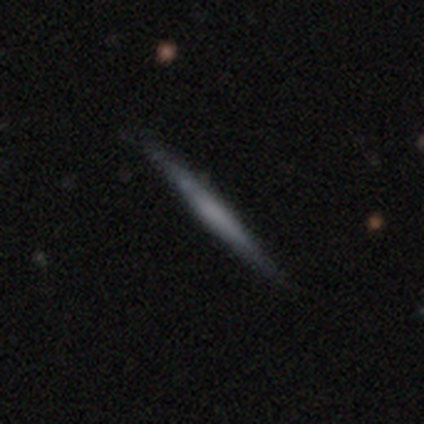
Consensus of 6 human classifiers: This appears to be a smooth galaxy with no disk features (67%) that is cigar-shaped (100%). Merging: none (100%).